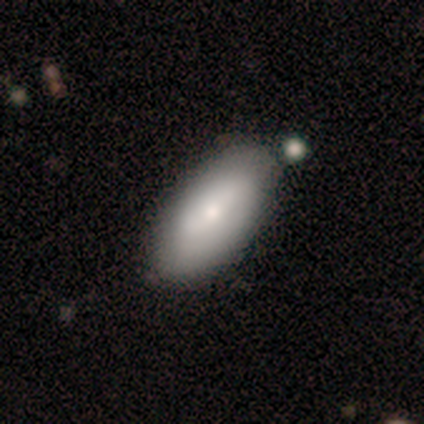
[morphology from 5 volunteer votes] Q: Smooth or featured?
A: smooth (100%)
Q: How rounded?
A: in between (80%); runner-up: cigar-shaped (20%)
Q: Merging?
A: none (80%); runner-up: major disturbance (20%)